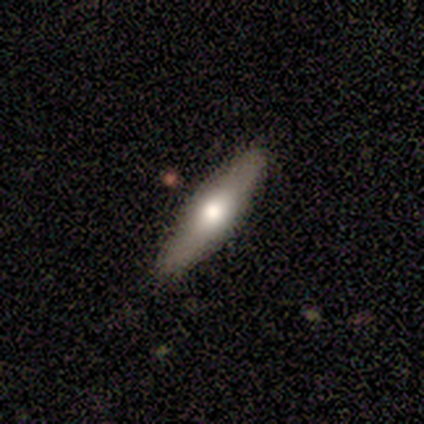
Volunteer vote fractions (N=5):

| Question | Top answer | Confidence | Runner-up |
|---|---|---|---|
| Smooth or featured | smooth | 60% | featured or disk (40%) |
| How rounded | cigar-shaped | 67% | in between (33%) |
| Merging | none | 80% | minor disturbance (20%) |